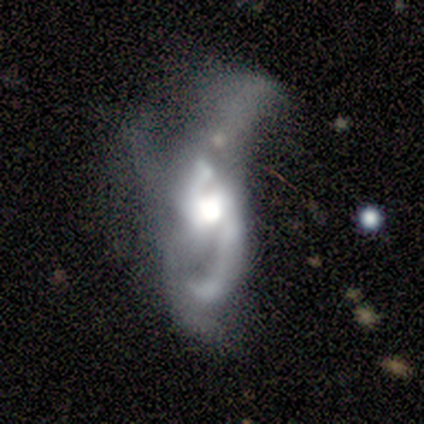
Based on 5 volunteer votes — Smooth or featured?
  - featured or disk: 60% *
  - smooth: 40%
  - star or artifact: 0%
Edge-on disk?
  - no: 100% *
  - yes: 0%
Bar?
  - no: 67% *
  - weak: 33%
  - strong: 0%
Spiral arms?
  - yes: 100% *
  - no: 0%
Spiral winding?
  - loose: 100% *
  - tight: 0%
  - medium: 0%
Spiral arm count?
  - 2: 100% *
  - 1: 0%
  - 3: 0%
  - 4: 0%
  - more than 4: 0%
  - can't tell: 0%
Bulge size?
  - moderate: 67% *
  - large: 33%
  - dominant: 0%
  - small: 0%
  - none: 0%
Merging?
  - major disturbance: 60% *
  - minor disturbance: 20%
  - merger: 20%
  - none: 0%